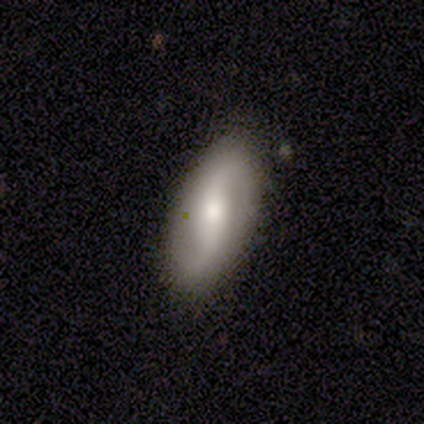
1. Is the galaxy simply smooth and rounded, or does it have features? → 60% featured or disk, 20% smooth, 20% star or artifact.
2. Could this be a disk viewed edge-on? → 100% no, 0% yes.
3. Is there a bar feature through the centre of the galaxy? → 67% weak, 33% no, 0% strong.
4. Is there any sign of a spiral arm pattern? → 100% yes, 0% no.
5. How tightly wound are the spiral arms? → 100% loose, 0% tight, 0% medium.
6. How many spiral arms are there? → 100% 2, 0% 1, 0% 3, 0% 4, 0% more than 4, 0% can't tell.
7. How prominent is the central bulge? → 100% moderate, 0% dominant, 0% large, 0% small, 0% none.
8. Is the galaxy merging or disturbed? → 50% none (tied), 50% minor disturbance (tied), 0% major disturbance, 0% merger.